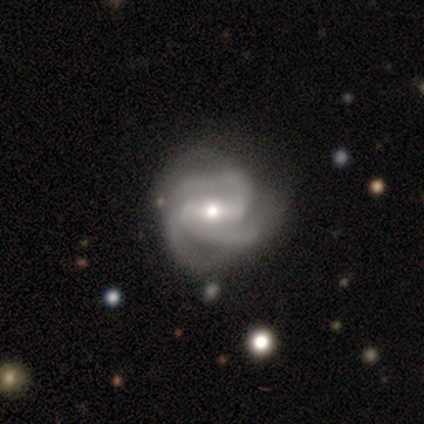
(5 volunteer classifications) This is clearly a featured or disk galaxy (80%). It is likely not viewed edge-on (75%). Bar: clearly strong (100%). Spiral arm pattern: clearly yes (100%). Spiral arm count: likely 3 (67%). Spiral winding: likely medium (67%). Central bulge: likely moderate (67%). Merging: possibly none (50%, tied with minor disturbance).